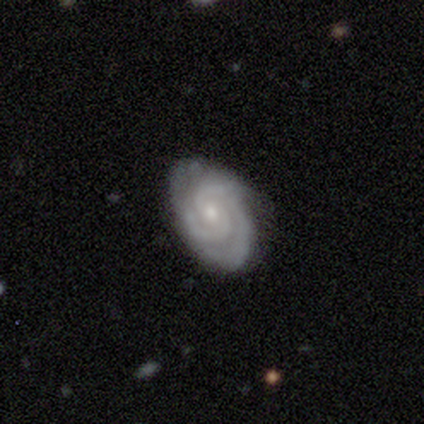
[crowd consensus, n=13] A featured or disk galaxy (100%) with no bar (62%), 2 (42%) tight (75%) spiral arms (92%) and a small central bulge (69%).

Vote fractions:
- Smooth or featured? featured or disk: 100% / smooth: 0% / star or artifact: 0%
- Edge-on disk? no: 100% / yes: 0%
- Bar? no: 62% / weak: 31% / strong: 8%
- Spiral arms? yes: 92% / no: 8%
- Spiral winding? tight: 75% / medium: 25% / loose: 0%
- Spiral arm count? 2: 42% / 3: 33% / can't tell: 25% / 1: 0% / 4: 0% / more than 4: 0%
- Bulge size? small: 69% / moderate: 31% / dominant: 0% / large: 0% / none: 0%
- Merging? none: 92% / minor disturbance: 8% / major disturbance: 0% / merger: 0%